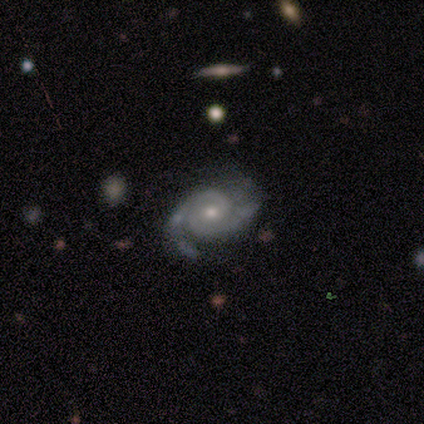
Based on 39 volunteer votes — smooth_or_featured: featured or disk (p=0.90) [alt: smooth p=0.05]
disk_edge_on: no (p=0.94) [alt: yes p=0.06]
bar: no (p=0.70) [alt: weak p=0.27]
has_spiral_arms: yes (p=1.00)
spiral_winding: tight (p=0.55) [alt: medium p=0.36]
spiral_arm_count: 2 (p=0.85) [alt: 3 p=0.09]
bulge_size: moderate (p=0.52) [alt: small p=0.42]
merging: none (p=0.68) [alt: minor disturbance p=0.19]